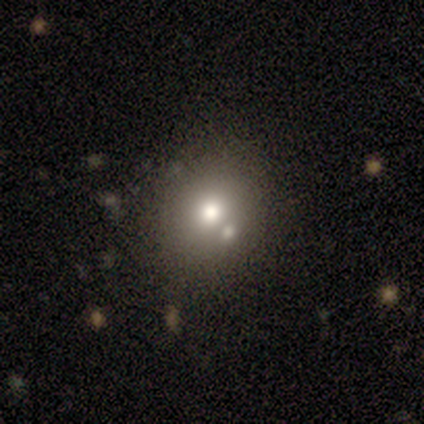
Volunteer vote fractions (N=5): Q: Smooth or featured?
A: smooth (60%); runner-up: featured or disk (20%)
Q: How rounded?
A: round (100%)
Q: Merging?
A: none (100%)